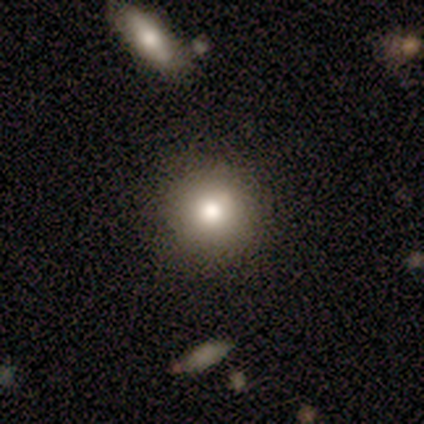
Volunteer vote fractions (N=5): smooth-or-featured: smooth: 80% | star or artifact: 20% | featured or disk: 0%
  how-rounded: round: 100% | in between: 0% | cigar-shaped: 0%
  merging: none: 75% | minor disturbance: 25% | major disturbance: 0% | merger: 0%